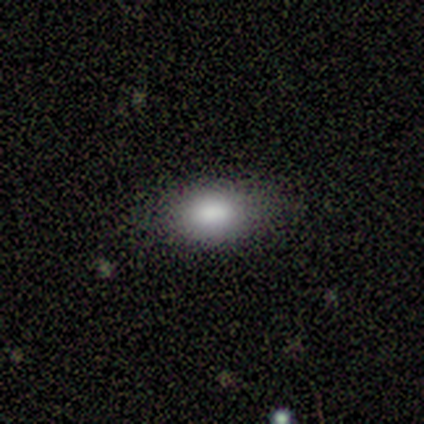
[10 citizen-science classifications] This is likely a smooth galaxy (70%). How rounded: clearly in between (86%). Merging: clearly none (88%).